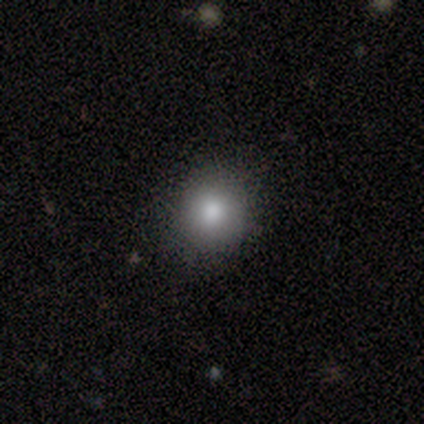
Smooth or featured: smooth — 71% (featured or disk — 29%)
How rounded: round — 100%
Merging: none — 100%